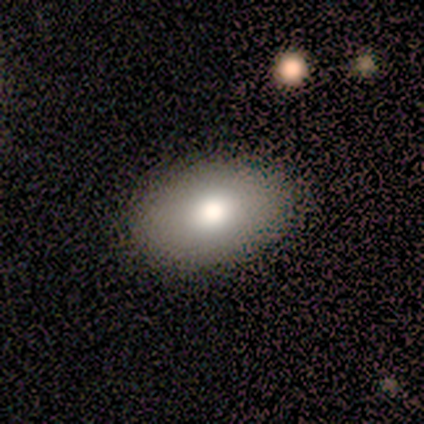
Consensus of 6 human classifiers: smooth-or-featured: smooth: 100% | featured or disk: 0% | star or artifact: 0%
  how-rounded: in between: 100% | round: 0% | cigar-shaped: 0%
  merging: none: 83% | minor disturbance: 17% | major disturbance: 0% | merger: 0%